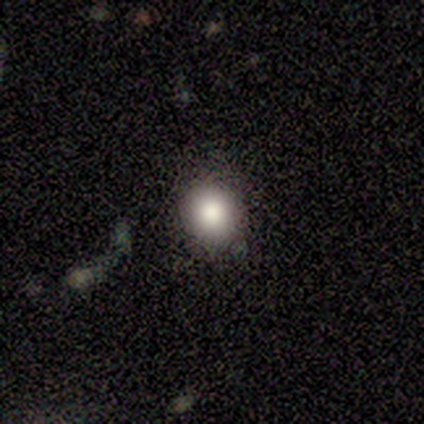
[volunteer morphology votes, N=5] This appears to be a star or artifact, not a galaxy (60%).